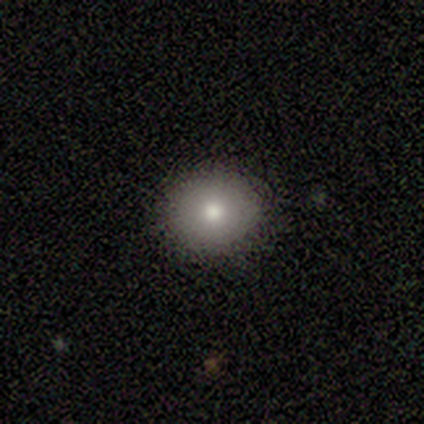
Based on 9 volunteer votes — smooth_or_featured: smooth (p=1.00)
how_rounded: round (p=1.00)
merging: none (p=1.00)